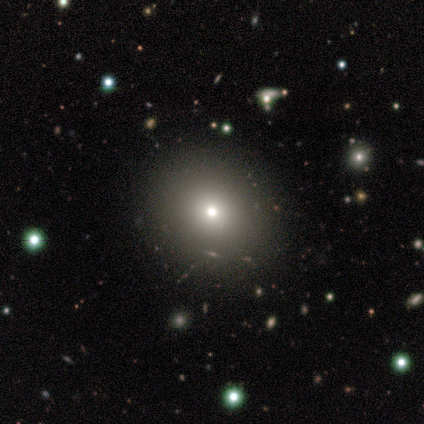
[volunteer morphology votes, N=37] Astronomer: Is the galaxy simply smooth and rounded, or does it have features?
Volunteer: smooth — 70%.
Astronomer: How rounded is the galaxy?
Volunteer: round — 96%.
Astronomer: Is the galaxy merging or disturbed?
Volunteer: none — 94%.